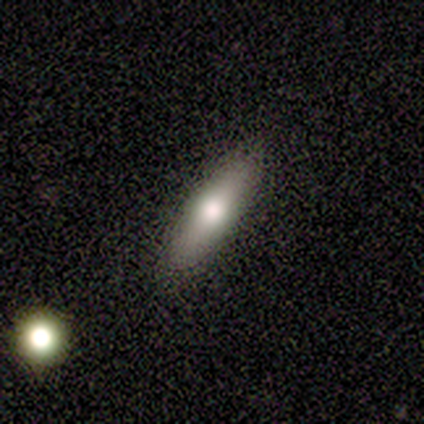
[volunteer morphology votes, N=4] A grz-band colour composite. It shows a smooth galaxy with no disk features (75%) that is cigar-shaped (67%). Merging: none (75%).